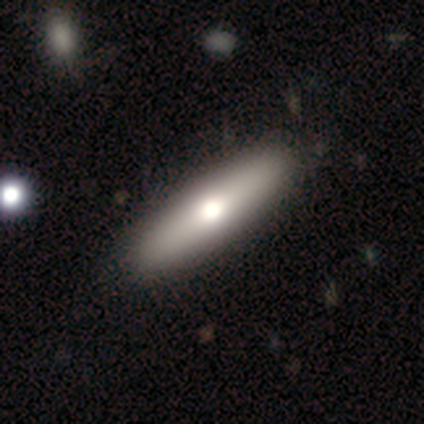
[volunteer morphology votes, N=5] This is likely a featured or disk galaxy (60%). It is likely viewed edge-on (67%). Edge-on bulge: clearly rounded (100%). Merging: likely none (60%).